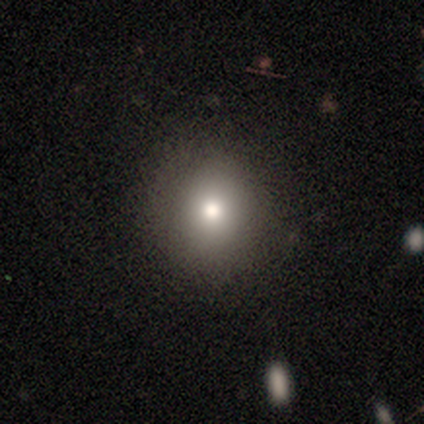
Volunteers were most divided on "how rounded": in between: 60%, round: 40%, cigar-shaped: 0%. More confident: merging — none (86%); smooth or featured — smooth (62%).